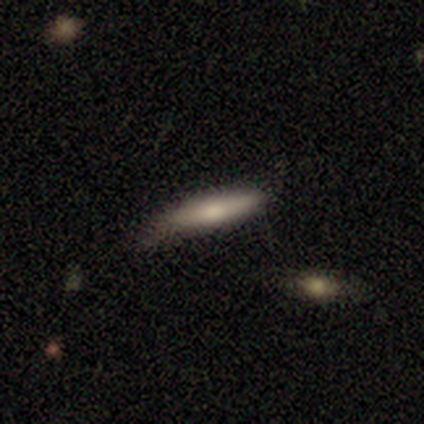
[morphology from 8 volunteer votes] Volunteers were most divided on "how rounded" (2-way tie): in between: 50%, cigar-shaped: 50%, round: 0%. More confident: smooth or featured — smooth (75%); merging — none (50%).